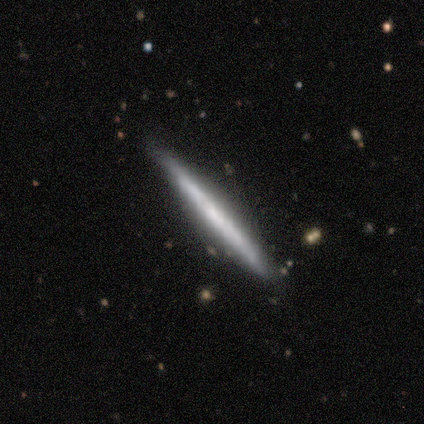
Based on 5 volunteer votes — Smooth or featured: featured or disk — 60% (smooth — 40%)
Edge-on disk: yes — 100%
Edge-on bulge: none — 67% (boxy — 33%)
Merging: none — 100%